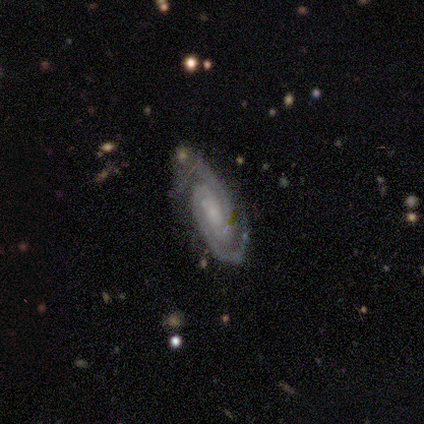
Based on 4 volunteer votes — This appears to be a featured or disk galaxy (100%) with no bar (75%), 2 (100%) tight (75%) spiral arms (100%) and a small central bulge (50%). Merging: none (75%).